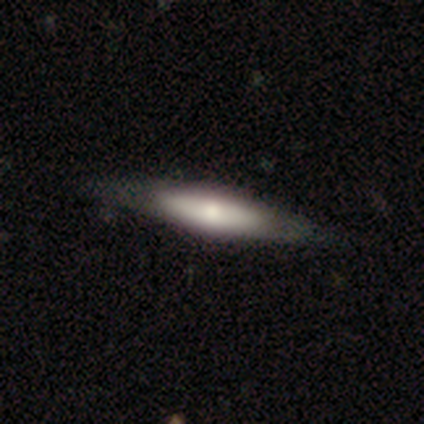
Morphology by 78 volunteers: A featured or disk galaxy (56%) viewed edge-on (80%) with a rounded central bulge (77%). Merging: none (53%).